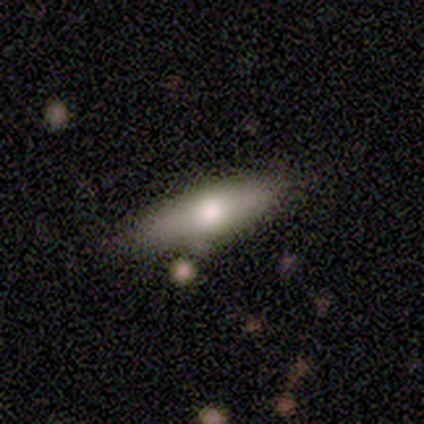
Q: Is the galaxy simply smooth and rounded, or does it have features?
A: smooth — 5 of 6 (83%).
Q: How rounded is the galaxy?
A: cigar-shaped — 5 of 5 (100%).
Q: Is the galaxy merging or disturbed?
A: none — 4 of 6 (67%).